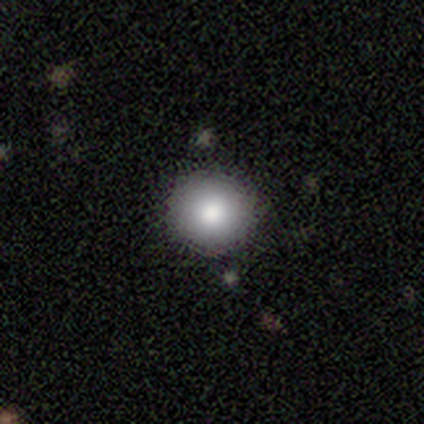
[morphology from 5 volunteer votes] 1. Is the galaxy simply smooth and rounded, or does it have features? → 100% smooth, 0% featured or disk, 0% star or artifact.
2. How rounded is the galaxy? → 100% round, 0% in between, 0% cigar-shaped.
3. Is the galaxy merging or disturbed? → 60% none, 40% minor disturbance, 0% major disturbance, 0% merger.